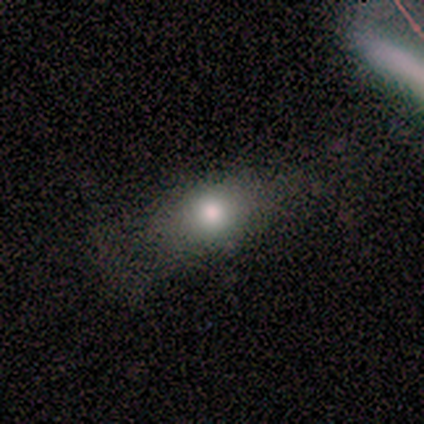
A smooth galaxy with no disk features (71%) that is in between round and cigar-shaped (58%).

Vote fractions:
- Smooth or featured? smooth: 71% / star or artifact: 18% / featured or disk: 12%
- How rounded? in between: 58% / round: 33% / cigar-shaped: 8%
- Merging? none: 50% / minor disturbance: 29% / major disturbance: 21% / merger: 0%